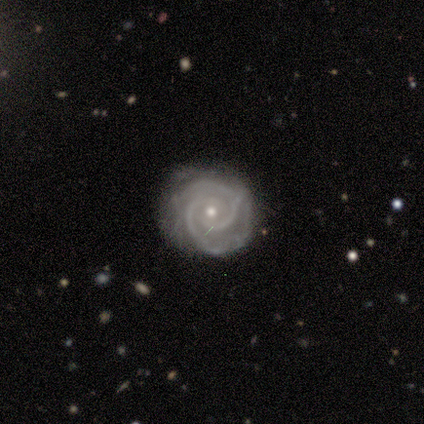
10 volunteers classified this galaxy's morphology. smooth_or_featured: featured or disk (p=0.90) [alt: star or artifact p=0.10]
disk_edge_on: no (p=1.00)
bar: no (p=0.67) [alt: weak p=0.22]
has_spiral_arms: yes (p=1.00)
spiral_winding: tight (p=0.67) [alt: medium p=0.33]
spiral_arm_count: 2 (p=0.78) [alt: 4 p=0.11]
bulge_size: moderate (p=0.44) [tied with: small p=0.44]
merging: none (p=0.56) [alt: minor disturbance p=0.44]